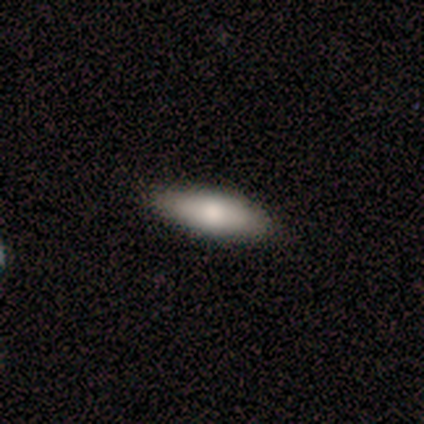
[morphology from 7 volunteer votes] Smooth or featured? smooth (86%)
How rounded? in between (67%)
Merging? none (100%)